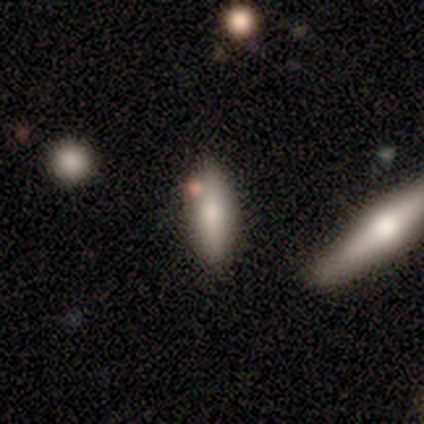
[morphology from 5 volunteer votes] smooth 60%, featured or disk 40%, star or artifact 0%. Down the decision tree: how rounded — in between (100%); merging — none (60%).